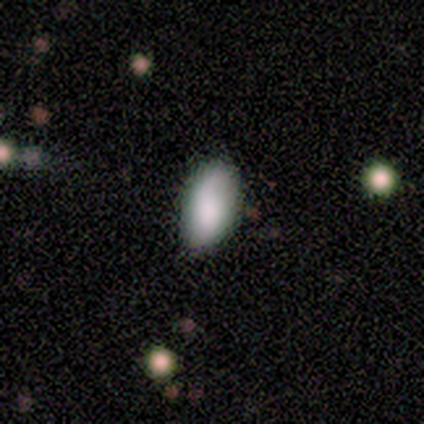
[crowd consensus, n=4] A smooth galaxy with no disk features (50%, tied with featured or disk) that is in between round and cigar-shaped (100%).

Vote fractions:
- Smooth or featured? smooth: 50% (tied) / featured or disk: 50% (tied) / star or artifact: 0%
- How rounded? in between: 100% / round: 0% / cigar-shaped: 0%
- Merging? minor disturbance: 50% / none: 25% / major disturbance: 25% / merger: 0%